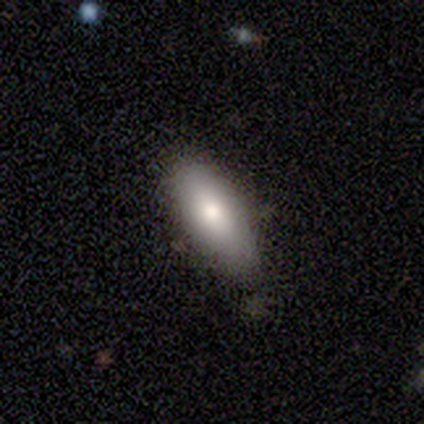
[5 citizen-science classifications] Morphology: type=smooth (80%); roundness=in between (75%); merging=none (80%).